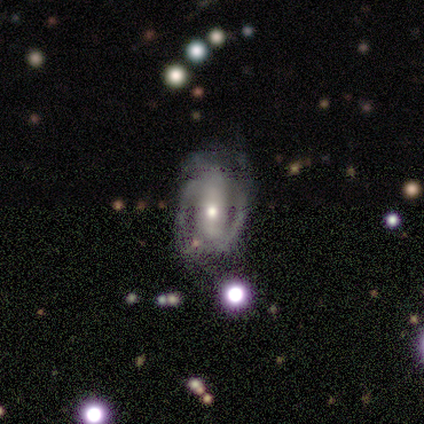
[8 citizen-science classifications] smooth-or-featured: featured or disk: 75% | star or artifact: 25% | smooth: 0%
  disk-edge-on: no: 100% | yes: 0%
    bar: strong: 50% | weak: 33% | no: 17%
    has-spiral-arms: yes: 83% | no: 17%
      spiral-winding: medium: 60% | tight: 20% | loose: 20%
      spiral-arm-count: 2: 60% | can't tell: 40% | 1: 0% | 3: 0% | 4: 0% | more than 4: 0%
    bulge-size: moderate: 67% | large: 17% | small: 17% | dominant: 0% | none: 0%
  merging: none: 83% | major disturbance: 17% | minor disturbance: 0% | merger: 0%